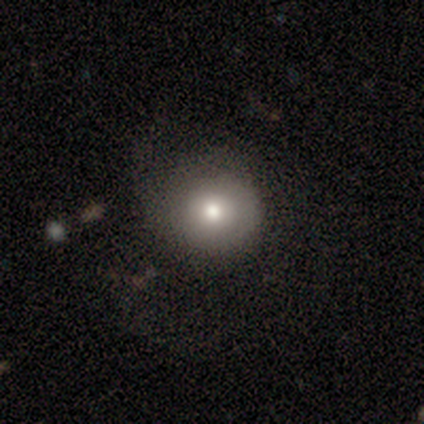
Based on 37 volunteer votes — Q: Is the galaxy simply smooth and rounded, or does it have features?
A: smooth — 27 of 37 (73%).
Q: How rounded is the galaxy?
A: round — 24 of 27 (89%).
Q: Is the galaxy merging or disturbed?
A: none — 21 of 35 (60%).